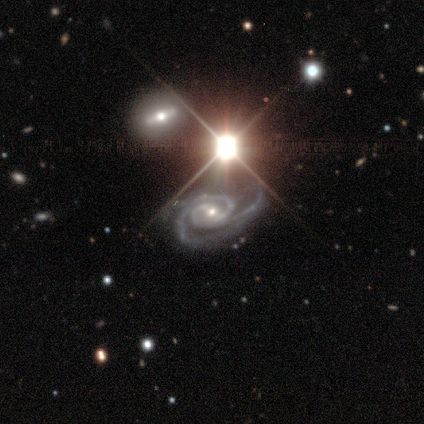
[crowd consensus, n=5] A featured or disk galaxy (80%) with a weak bar (50%, tied with no), 2 (50%, tied with 3) tight (50%, tied with medium) spiral arms (100%) and a small central bulge (100%). Merging: major disturbance (50%).